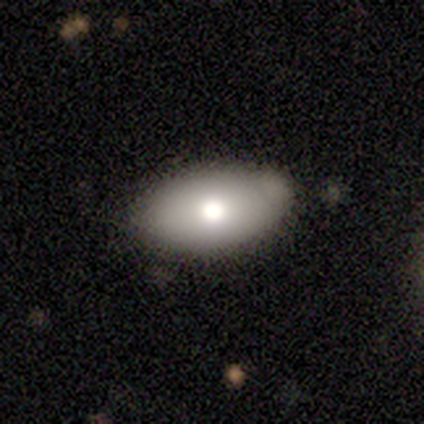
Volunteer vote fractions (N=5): Overall: featured or disk (80%). Edge-on disk: no (100%). Bar: no (100%). Spiral arms: no (100%). Bulge size: moderate (75%). Merging: none (40%, tied with minor disturbance).